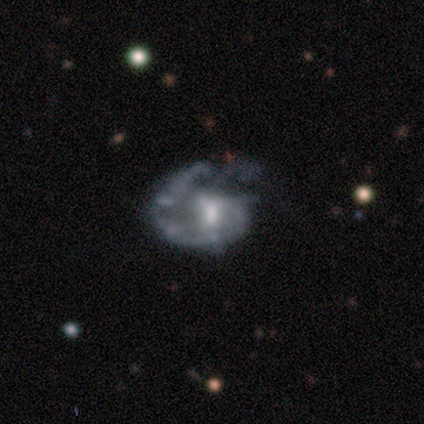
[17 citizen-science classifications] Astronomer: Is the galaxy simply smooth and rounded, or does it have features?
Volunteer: featured or disk — 65%.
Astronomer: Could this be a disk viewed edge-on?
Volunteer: no — 100%.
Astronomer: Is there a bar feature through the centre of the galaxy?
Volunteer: weak — 55%.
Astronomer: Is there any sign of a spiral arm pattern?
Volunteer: yes — 82%.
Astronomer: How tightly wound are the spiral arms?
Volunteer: tight — 67%.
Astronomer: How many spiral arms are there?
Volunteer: can't tell — 56% (runner-up: 1, 44%).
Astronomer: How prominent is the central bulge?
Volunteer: moderate — 64%.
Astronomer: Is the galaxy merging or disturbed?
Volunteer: major disturbance — 73%.